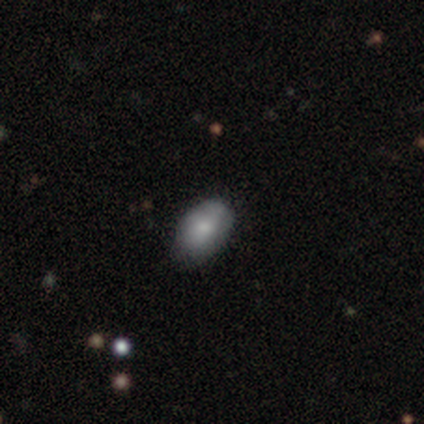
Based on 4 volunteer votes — smooth-or-featured: smooth: 50% (tied) | featured or disk: 50% (tied) | star or artifact: 0%
  how-rounded: round: 50% (tied) | in between: 50% (tied) | cigar-shaped: 0%
  merging: none: 100% | minor disturbance: 0% | major disturbance: 0% | merger: 0%